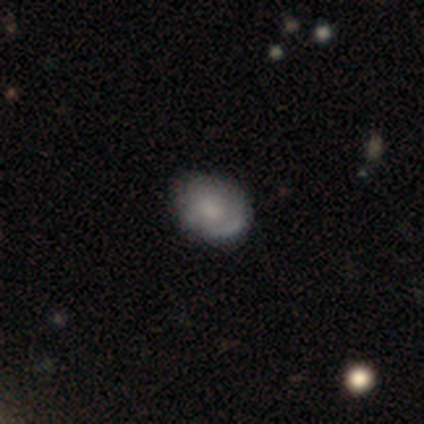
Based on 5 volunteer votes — Overall: smooth (80%). How rounded: round (50%, tied with in between). Merging: none (80%).